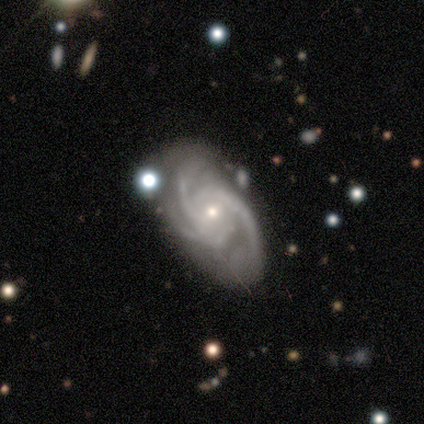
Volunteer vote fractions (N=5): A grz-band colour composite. It shows a featured or disk galaxy (100%) with no bar (80%), 3 (60%) tight (80%) spiral arms (100%) and a small central bulge (80%). Merging: none (60%).